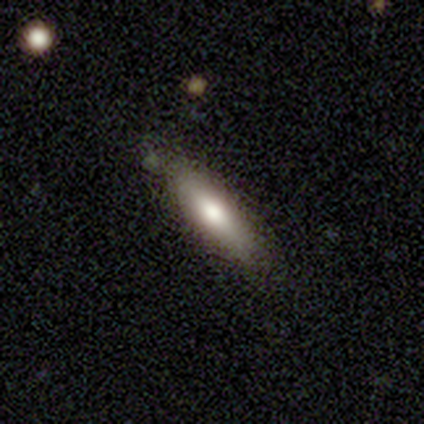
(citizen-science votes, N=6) smooth-or-featured: smooth: 83% | featured or disk: 17% | star or artifact: 0%
  how-rounded: cigar-shaped: 80% | in between: 20% | round: 0%
  merging: none: 50% (tied) | minor disturbance: 50% (tied) | major disturbance: 0% | merger: 0%